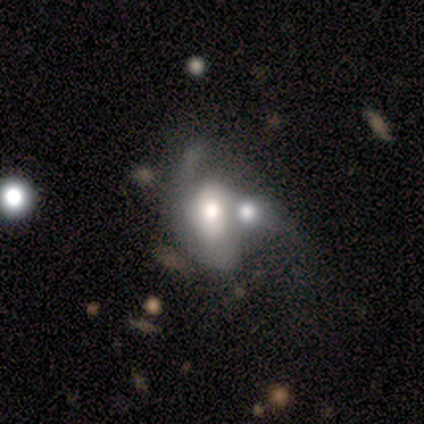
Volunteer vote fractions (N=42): Q: Smooth or featured?
A: featured or disk (60%); runner-up: smooth (29%)
Q: Edge-on disk?
A: no (96%); runner-up: yes (4%)
Q: Bar?
A: no (75%); runner-up: weak (17%)
Q: Spiral arms?
A: yes (54%); runner-up: no (46%)
Q: Spiral winding?
A: tight (69%); runner-up: medium (15%)
Q: Spiral arm count?
A: 1 (46%); runner-up: 2 (31%)
Q: Bulge size?
A: large (54%); runner-up: moderate (46%)
Q: Merging?
A: merger (62%); runner-up: none (16%)